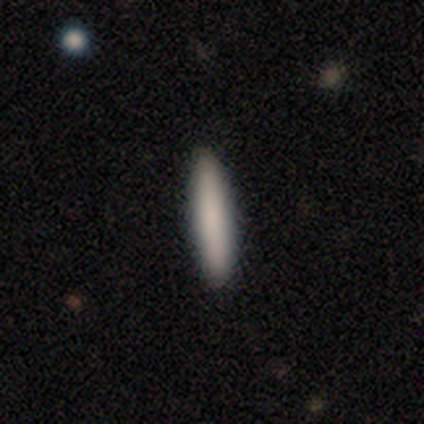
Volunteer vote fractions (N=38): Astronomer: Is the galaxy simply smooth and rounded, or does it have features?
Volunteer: smooth — 68%.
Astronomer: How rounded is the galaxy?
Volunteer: cigar-shaped — 96%.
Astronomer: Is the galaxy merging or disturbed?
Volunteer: none — 89%.